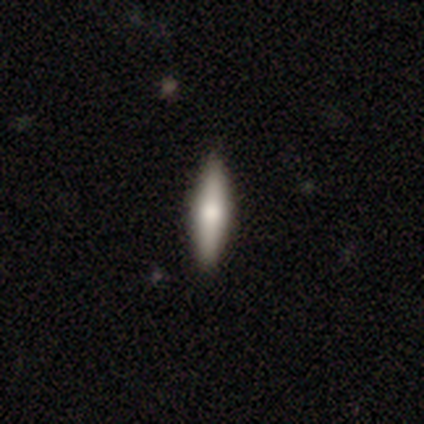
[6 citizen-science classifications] Morphology: type=smooth (67%); roundness=cigar-shaped (100%); merging=none (100%).